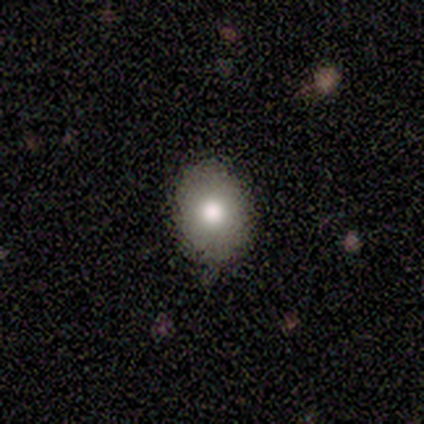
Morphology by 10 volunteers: Overall: smooth (60%; star or artifact 40%). How rounded: in between (83%). Merging: none (83%).